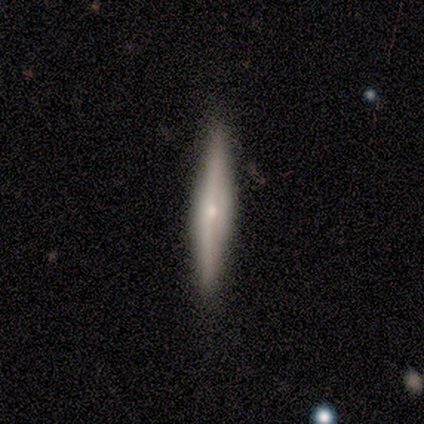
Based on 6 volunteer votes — A featured or disk galaxy (100%) viewed edge-on (67%) with a rounded central bulge (100%).

Vote fractions:
- Smooth or featured? featured or disk: 100% / smooth: 0% / star or artifact: 0%
- Edge-on disk? yes: 67% / no: 33%
- Edge-on bulge? rounded: 100% / boxy: 0% / none: 0%
- Merging? none: 83% / major disturbance: 17% / minor disturbance: 0% / merger: 0%